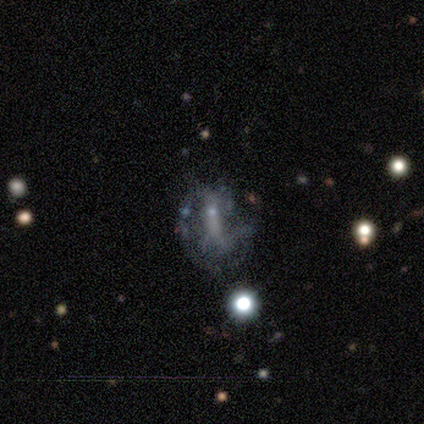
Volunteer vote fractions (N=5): A featured or disk galaxy (80%) with no bar (75%), no spiral arms (75%) and no central bulge (100%).

Vote fractions:
- Smooth or featured? featured or disk: 80% / star or artifact: 20% / smooth: 0%
- Edge-on disk? no: 100% / yes: 0%
- Bar? no: 75% / strong: 25% / weak: 0%
- Spiral arms? no: 75% / yes: 25%
- Bulge size? none: 100% / dominant: 0% / large: 0% / moderate: 0% / small: 0%
- Merging? major disturbance: 50% / none: 25% / minor disturbance: 25% / merger: 0%